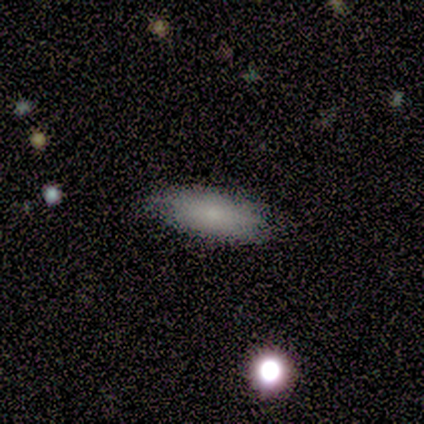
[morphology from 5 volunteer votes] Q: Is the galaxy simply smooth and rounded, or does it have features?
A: smooth — 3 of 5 (60%).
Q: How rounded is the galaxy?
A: in between — 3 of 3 (100%).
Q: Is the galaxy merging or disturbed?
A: none — 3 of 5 (60%).